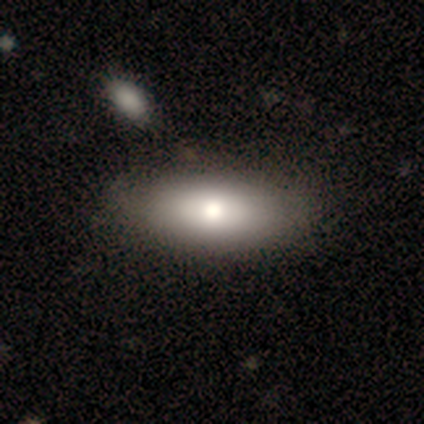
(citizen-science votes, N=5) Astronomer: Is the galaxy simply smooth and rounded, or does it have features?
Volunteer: smooth — 40%, tied with featured or disk at 40%.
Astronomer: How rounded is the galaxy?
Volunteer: in between — 100%.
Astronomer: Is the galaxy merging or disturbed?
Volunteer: none — 75%.